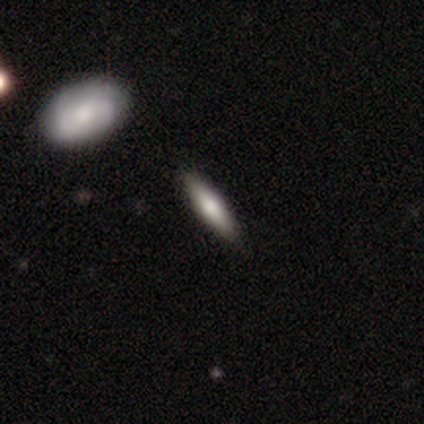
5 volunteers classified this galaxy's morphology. This is clearly a smooth galaxy (80%). How rounded: likely cigar-shaped (75%). Merging: clearly none (80%).